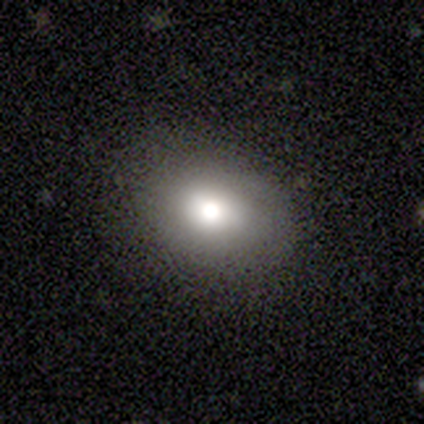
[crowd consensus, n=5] Volunteers were most divided on "how rounded": round: 75%, in between: 25%, cigar-shaped: 0%. More confident: smooth or featured — smooth (80%); merging — none (80%).